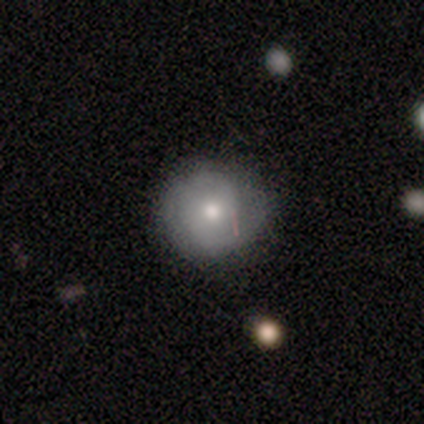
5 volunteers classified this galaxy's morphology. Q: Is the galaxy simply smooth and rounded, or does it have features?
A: featured or disk — 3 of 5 (60%).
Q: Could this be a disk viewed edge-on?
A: no — 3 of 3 (100%).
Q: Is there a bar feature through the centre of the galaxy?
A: no — 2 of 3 (67%).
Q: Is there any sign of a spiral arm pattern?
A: yes — 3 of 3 (100%).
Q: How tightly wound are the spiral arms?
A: medium — 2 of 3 (67%).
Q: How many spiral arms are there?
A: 2 — 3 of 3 (100%).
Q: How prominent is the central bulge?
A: moderate — 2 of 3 (67%).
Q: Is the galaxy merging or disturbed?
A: none — 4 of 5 (80%).